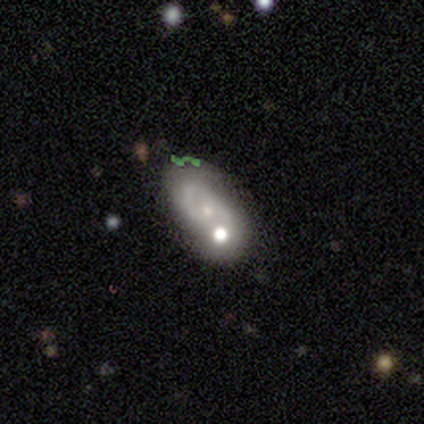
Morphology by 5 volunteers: Q: Smooth or featured?
A: featured or disk (80%); runner-up: smooth (20%)
Q: Edge-on disk?
A: no (75%); runner-up: yes (25%)
Q: Bar?
A: weak (67%); runner-up: no (33%)
Q: Spiral arms?
A: yes (67%); runner-up: no (33%)
Q: Spiral winding?
A: tight (100%)
Q: Spiral arm count?
A: can't tell (100%)
Q: Bulge size?
A: small (67%); runner-up: dominant (33%)
Q: Merging?
A: merger (80%); runner-up: minor disturbance (20%)